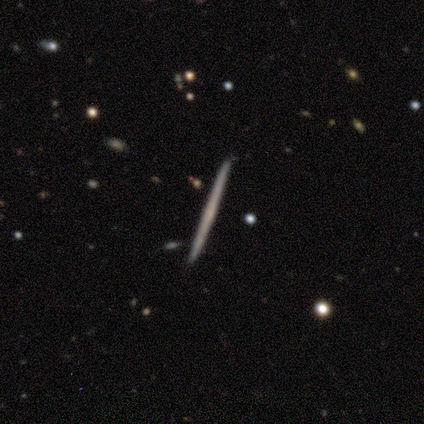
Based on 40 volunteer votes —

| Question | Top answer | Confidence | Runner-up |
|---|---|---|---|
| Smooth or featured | featured or disk | 65% | smooth (22%) |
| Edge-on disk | yes | 88% | no (12%) |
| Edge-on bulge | none | 91% | boxy (4%) |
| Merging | none | 97% | major disturbance (3%) |